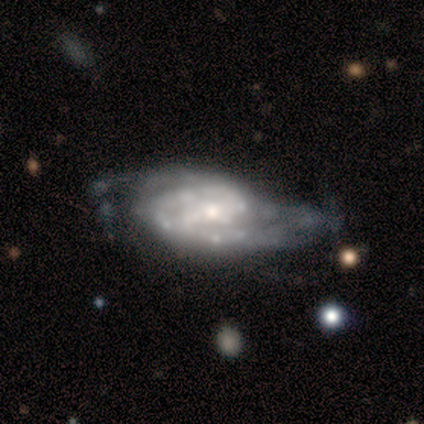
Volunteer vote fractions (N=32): Overall: featured or disk (91%). Edge-on disk: no (97%). Bar: strong (39%; weak 32%). Spiral arms: yes (82%). Spiral arm count: 2 (61%; can't tell 30%). Spiral winding: tight (43%; medium 35%). Bulge size: moderate (43%; small 39%). Merging: major disturbance (39%; none 35%).